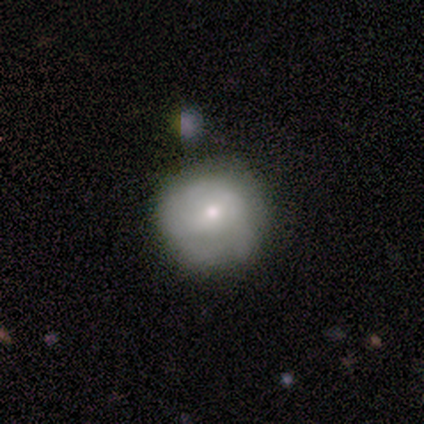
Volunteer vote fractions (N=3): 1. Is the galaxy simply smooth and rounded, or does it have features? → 100% smooth, 0% featured or disk, 0% star or artifact.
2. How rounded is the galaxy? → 100% round, 0% in between, 0% cigar-shaped.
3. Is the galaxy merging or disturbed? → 67% none, 33% major disturbance, 0% minor disturbance, 0% merger.